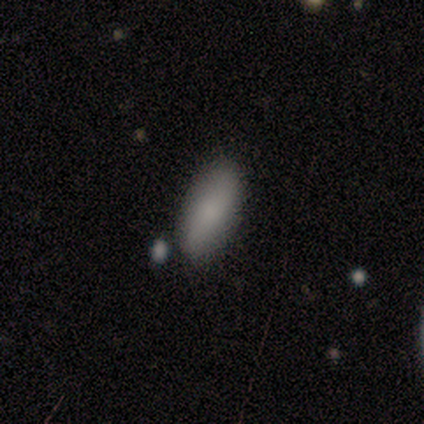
This appears to be a smooth galaxy with no disk features (80%) that is in between round and cigar-shaped (100%). Merging: none (100%).